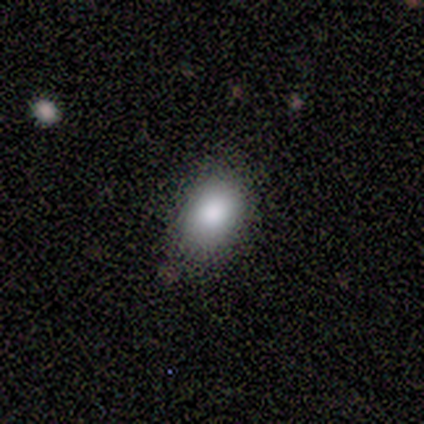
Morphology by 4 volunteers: smooth 75%, featured or disk 25%, star or artifact 0%. Down the decision tree: how rounded — in between (67%); merging — none (100%).